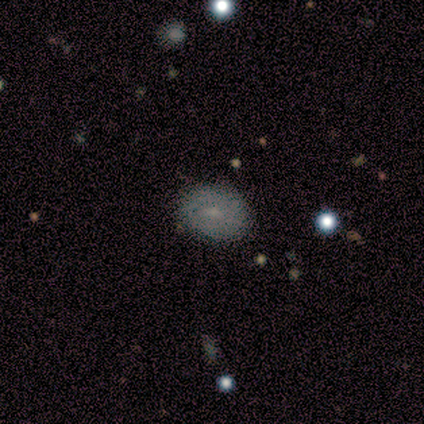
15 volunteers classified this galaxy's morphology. type=smooth (47%); roundness=in between (57%); merging=none (100%).